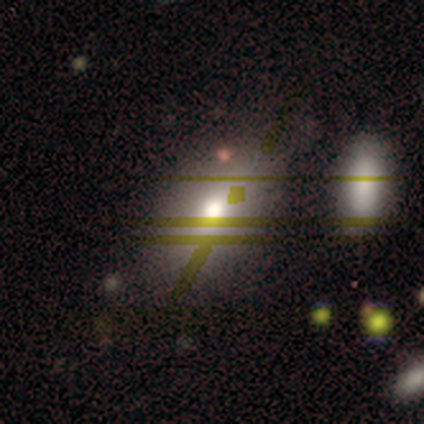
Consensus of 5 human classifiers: This is likely a smooth galaxy (60%). How rounded: clearly in between (100%). Merging: clearly none (100%).